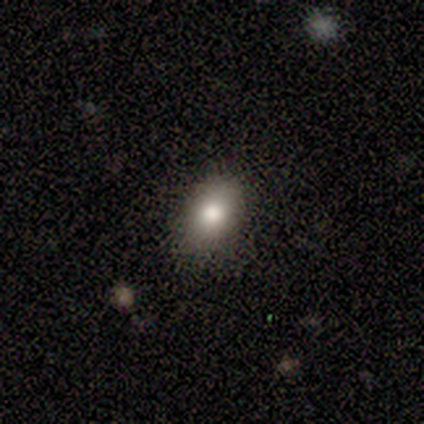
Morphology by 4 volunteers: Q: Smooth or featured?
A: smooth (50%); tied with: featured or disk (50%)
Q: How rounded?
A: in between (100%)
Q: Merging?
A: none (75%); runner-up: minor disturbance (25%)